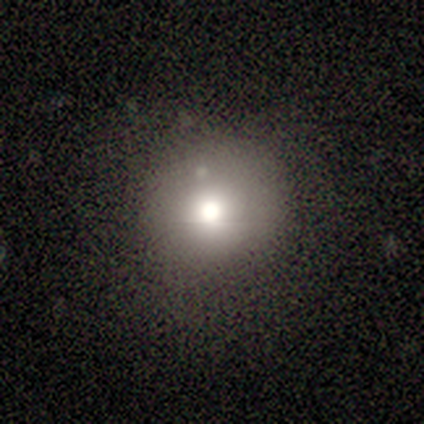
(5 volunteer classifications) smooth-or-featured: smooth: 100% | featured or disk: 0% | star or artifact: 0%
  how-rounded: round: 60% | in between: 20% | cigar-shaped: 20%
  merging: none: 80% | major disturbance: 20% | minor disturbance: 0% | merger: 0%